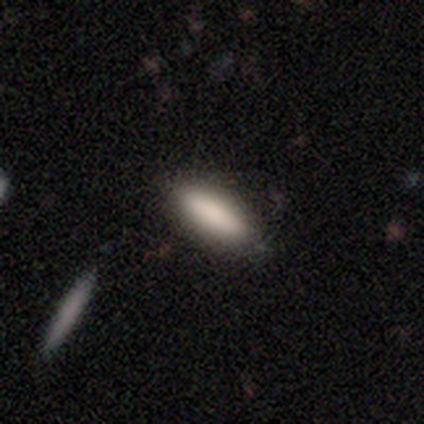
Overall: smooth (100%). How rounded: cigar-shaped (60%; in between 40%). Merging: none (100%).